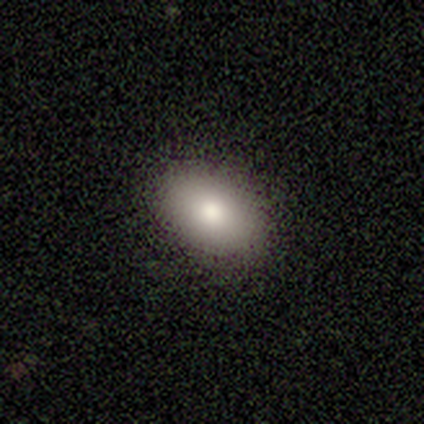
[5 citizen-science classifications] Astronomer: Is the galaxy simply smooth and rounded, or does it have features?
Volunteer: smooth — 100%.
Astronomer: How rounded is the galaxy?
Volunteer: in between — 80%.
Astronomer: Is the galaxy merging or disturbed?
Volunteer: none — 100%.